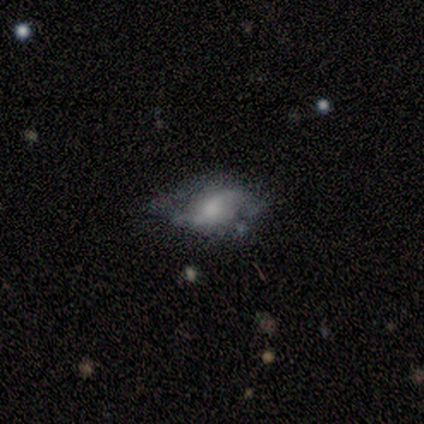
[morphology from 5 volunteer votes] A featured or disk galaxy (80%) with a weak bar (75%), 2 (67%) medium (67%) spiral arms (75%) and a moderate central bulge (100%).

Vote fractions:
- Smooth or featured? featured or disk: 80% / smooth: 20% / star or artifact: 0%
- Edge-on disk? no: 100% / yes: 0%
- Bar? weak: 75% / no: 25% / strong: 0%
- Spiral arms? yes: 75% / no: 25%
- Spiral winding? medium: 67% / loose: 33% / tight: 0%
- Spiral arm count? 2: 67% / 1: 33% / 3: 0% / 4: 0% / more than 4: 0% / can't tell: 0%
- Bulge size? moderate: 100% / dominant: 0% / large: 0% / small: 0% / none: 0%
- Merging? minor disturbance: 60% / major disturbance: 40% / none: 0% / merger: 0%